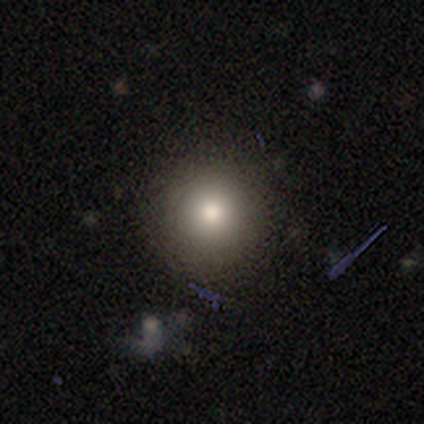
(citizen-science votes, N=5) smooth 80%, featured or disk 20%, star or artifact 0%. Down the decision tree: how rounded — round (100%); merging — none (100%).